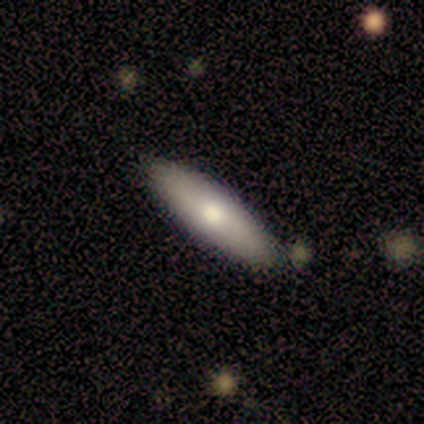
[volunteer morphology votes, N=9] smooth 67%, featured or disk 33%, star or artifact 0%. Down the decision tree: how rounded — in between (50%, tied with cigar-shaped); merging — none (89%).